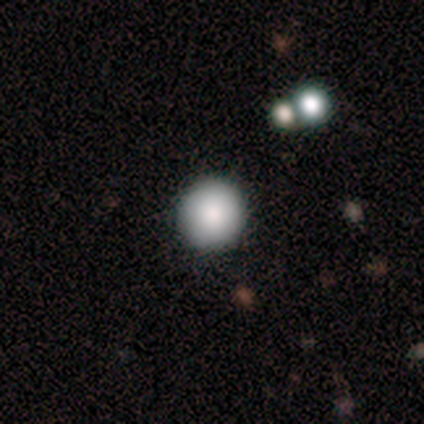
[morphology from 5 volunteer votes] Smooth or featured? smooth (80%)
How rounded? round (100%)
Merging? none (80%)